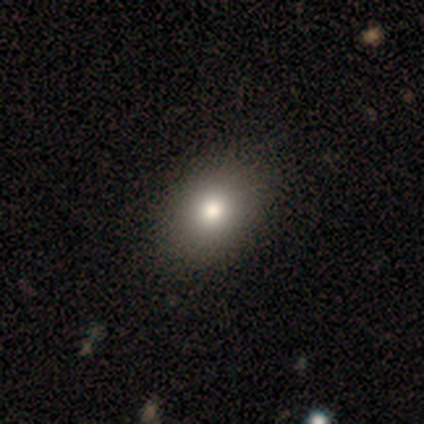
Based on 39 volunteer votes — Smooth or featured?
  - smooth: 79% *
  - featured or disk: 13%
  - star or artifact: 8%
How rounded?
  - in between: 61% *
  - round: 39%
  - cigar-shaped: 0%
Merging?
  - none: 64% *
  - minor disturbance: 3%
  - major disturbance: 0%
  - merger: 0%